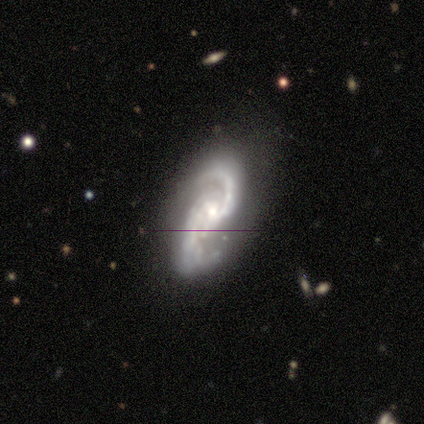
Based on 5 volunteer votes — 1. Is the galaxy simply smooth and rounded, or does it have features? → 80% featured or disk, 20% smooth, 0% star or artifact.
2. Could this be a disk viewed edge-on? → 100% no, 0% yes.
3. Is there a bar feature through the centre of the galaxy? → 50% strong, 25% weak, 25% no.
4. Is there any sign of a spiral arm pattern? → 100% yes, 0% no.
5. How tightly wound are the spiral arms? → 75% medium, 25% loose, 0% tight.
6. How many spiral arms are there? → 100% 2, 0% 1, 0% 3, 0% 4, 0% more than 4, 0% can't tell.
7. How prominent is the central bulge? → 50% moderate (tied), 50% small (tied), 0% dominant, 0% large, 0% none.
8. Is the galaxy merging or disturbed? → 40% none (tied), 40% minor disturbance (tied), 20% major disturbance, 0% merger.